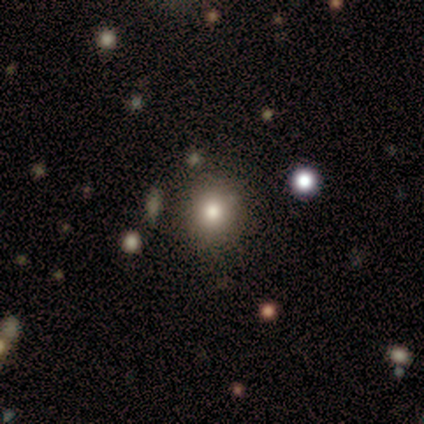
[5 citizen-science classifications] smooth_or_featured: smooth (p=0.80) [alt: featured or disk p=0.20]
how_rounded: round (p=0.75) [alt: in between p=0.25]
merging: none (p=0.60) [alt: minor disturbance p=0.20]